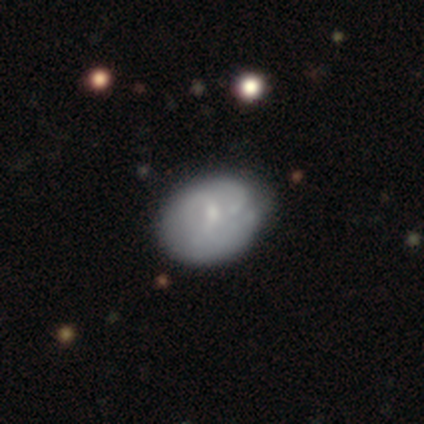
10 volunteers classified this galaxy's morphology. Overall: smooth (60%; featured or disk 40%). How rounded: round (50%; in between 33%). Merging: none (60%; minor disturbance 40%).